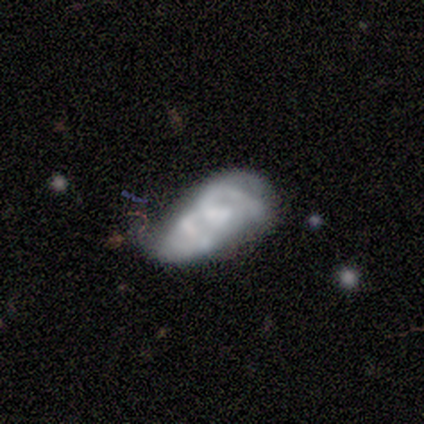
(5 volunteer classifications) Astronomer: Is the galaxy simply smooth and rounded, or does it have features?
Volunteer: featured or disk — 80%.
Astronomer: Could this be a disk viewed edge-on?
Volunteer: no — 100%.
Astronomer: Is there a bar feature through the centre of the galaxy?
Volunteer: no — 50%.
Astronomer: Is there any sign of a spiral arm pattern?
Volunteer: yes — 50%, tied with no at 50%.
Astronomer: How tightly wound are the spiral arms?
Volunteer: medium — 100%.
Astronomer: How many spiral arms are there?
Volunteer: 2 — 50%, tied with can't tell at 50%.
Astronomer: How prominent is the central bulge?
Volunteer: none — 75%.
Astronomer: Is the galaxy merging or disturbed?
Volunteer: major disturbance — 80%.